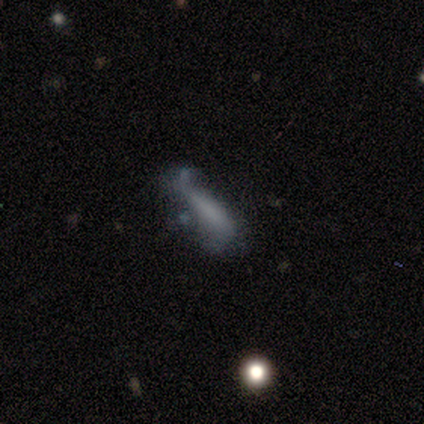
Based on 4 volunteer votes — Q: Smooth or featured?
A: smooth (50%); tied with: featured or disk (50%)
Q: How rounded?
A: in between (50%); tied with: cigar-shaped (50%)
Q: Merging?
A: major disturbance (75%); runner-up: merger (25%)